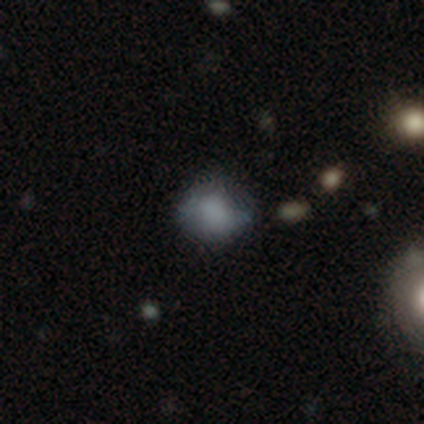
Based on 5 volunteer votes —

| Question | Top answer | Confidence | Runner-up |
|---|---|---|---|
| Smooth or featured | featured or disk | 80% | star or artifact (20%) |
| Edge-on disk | no | 75% | yes (25%) |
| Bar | no | 100% | — |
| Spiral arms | no | 100% | — |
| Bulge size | none | 100% | — |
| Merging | none | 50% | tied: minor disturbance (50%) |